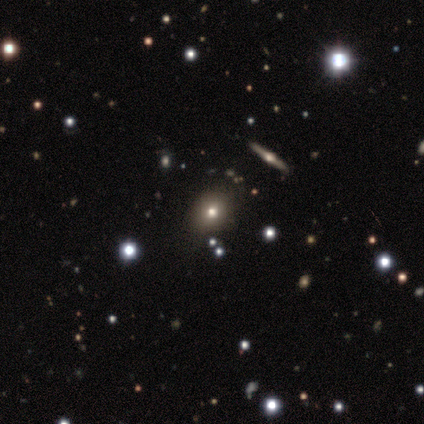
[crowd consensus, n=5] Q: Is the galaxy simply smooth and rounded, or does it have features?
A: smooth — 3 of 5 (60%).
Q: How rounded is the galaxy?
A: in between — 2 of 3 (67%).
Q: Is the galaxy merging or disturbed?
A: none — 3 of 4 (75%).